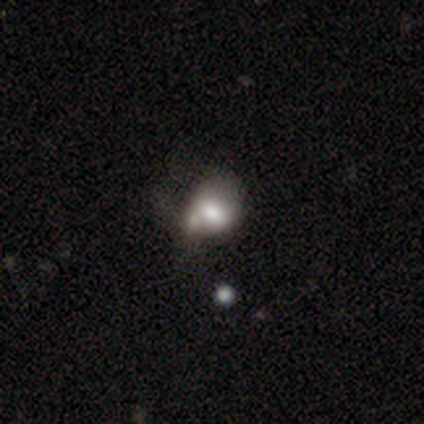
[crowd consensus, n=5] Morphology: type=smooth (40%, tied with featured or disk); roundness=round (50%, tied with in between); merging=none (50%, tied with merger).